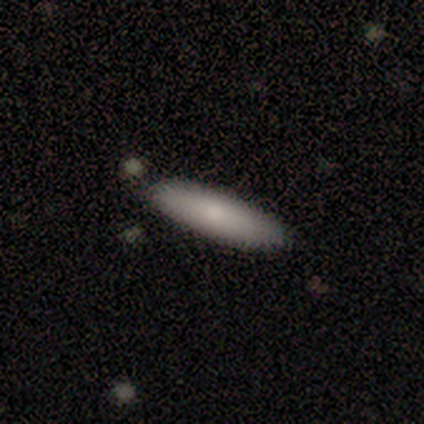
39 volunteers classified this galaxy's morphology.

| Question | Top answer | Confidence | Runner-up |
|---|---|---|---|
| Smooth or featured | smooth | 72% | featured or disk (18%) |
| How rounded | cigar-shaped | 79% | in between (21%) |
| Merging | none | 86% | minor disturbance (9%) |